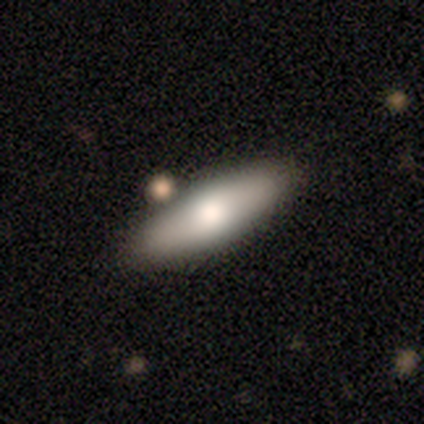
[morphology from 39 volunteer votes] Smooth or featured? smooth (69%)
How rounded? in between (52%)
Merging? none (61%)